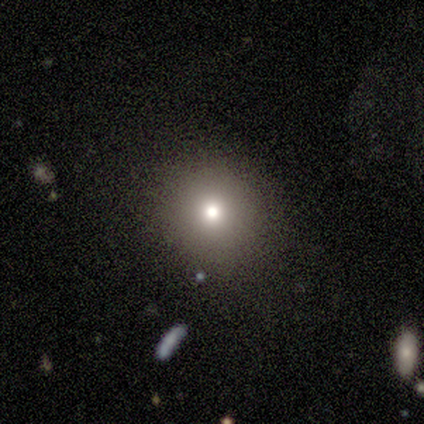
Smooth or featured? 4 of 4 (100%) said smooth. How rounded? 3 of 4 (75%) said round. Merging? 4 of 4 (100%) said none.